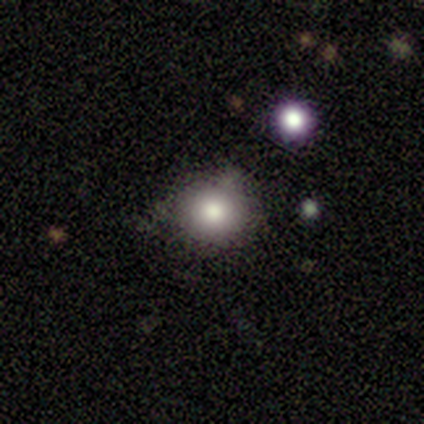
smooth 80%, star or artifact 20%, featured or disk 0%. Down the decision tree: how rounded — round (100%); merging — none (75%).